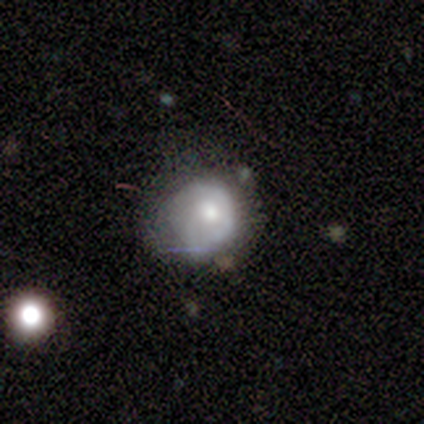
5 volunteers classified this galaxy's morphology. Volunteers were most divided on "smooth or featured": smooth: 60%, featured or disk: 40%, star or artifact: 0%. More confident: how rounded — round (67%); merging — minor disturbance (60%).